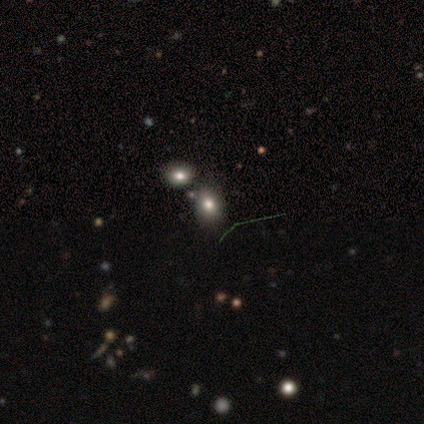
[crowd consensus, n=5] A smooth galaxy with no disk features (100%) that is round (60%). Merging: none (60%).